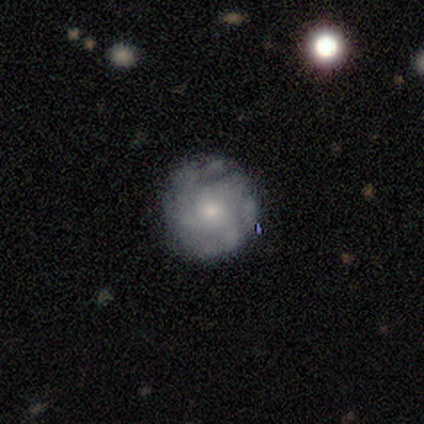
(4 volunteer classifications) Overall: featured or disk (50%; smooth 25%). Edge-on disk: no (100%). Bar: weak (50%, tied with no). Spiral arms: no (100%). Bulge size: moderate (50%, tied with small). Merging: major disturbance (67%; none 33%).